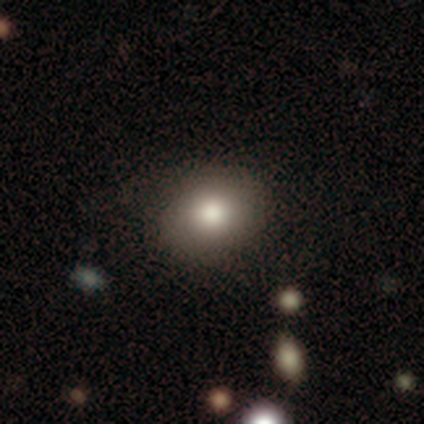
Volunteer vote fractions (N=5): Volunteers were most divided on "how rounded": in between: 75%, round: 25%, cigar-shaped: 0%. More confident: merging — none (100%); smooth or featured — smooth (80%).